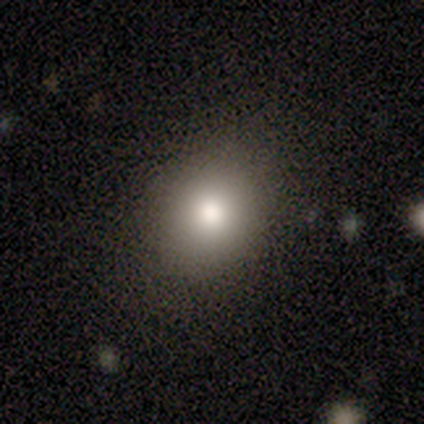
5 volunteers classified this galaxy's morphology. Q: Smooth or featured?
A: smooth (80%); runner-up: star or artifact (20%)
Q: How rounded?
A: round (50%); tied with: in between (50%)
Q: Merging?
A: none (75%); runner-up: minor disturbance (25%)